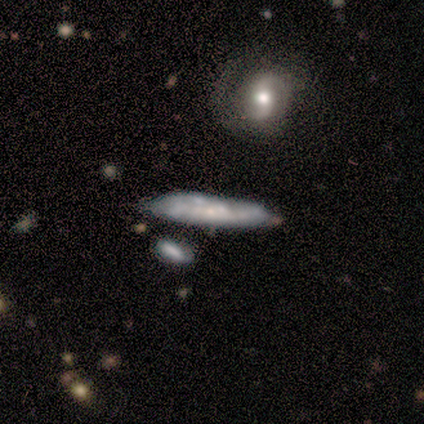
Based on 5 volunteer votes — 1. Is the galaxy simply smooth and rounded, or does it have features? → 60% featured or disk, 40% smooth, 0% star or artifact.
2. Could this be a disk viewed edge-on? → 100% yes, 0% no.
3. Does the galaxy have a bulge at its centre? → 33% boxy (tied), 33% none (tied), 33% rounded (tied).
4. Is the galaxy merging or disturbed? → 60% none, 40% minor disturbance, 0% major disturbance, 0% merger.